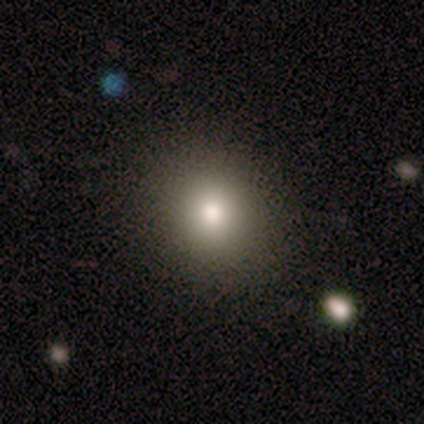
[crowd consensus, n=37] Smooth or featured? smooth (81%)
How rounded? round (77%)
Merging? none (82%)